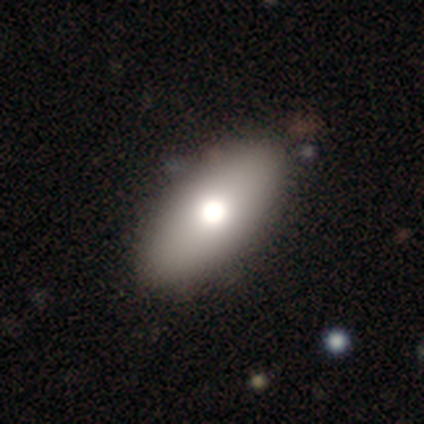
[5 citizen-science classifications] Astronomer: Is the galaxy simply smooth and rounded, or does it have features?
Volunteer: smooth — 60% (runner-up: featured or disk, 40%).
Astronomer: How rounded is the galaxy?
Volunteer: in between — 100%.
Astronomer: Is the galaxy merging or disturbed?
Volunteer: none — 100%.